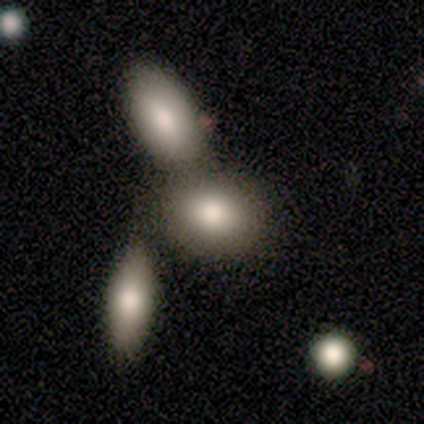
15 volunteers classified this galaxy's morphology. Volunteers were most divided on "merging": merger: 57%, none: 43%, minor disturbance: 0%, major disturbance: 0%. More confident: smooth or featured — smooth (80%); how rounded — in between (58%).